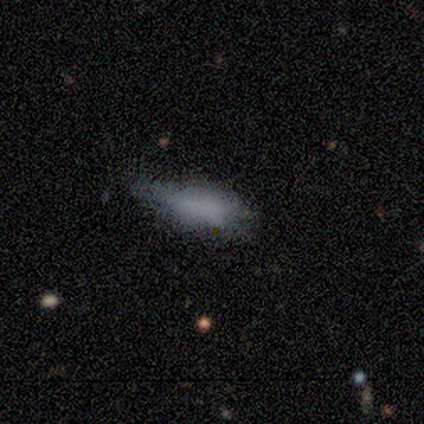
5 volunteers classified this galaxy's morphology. smooth-or-featured: smooth: 80% | star or artifact: 20% | featured or disk: 0%
  how-rounded: in between: 50% (tied) | cigar-shaped: 50% (tied) | round: 0%
  merging: none: 50% (tied) | minor disturbance: 50% (tied) | major disturbance: 0% | merger: 0%